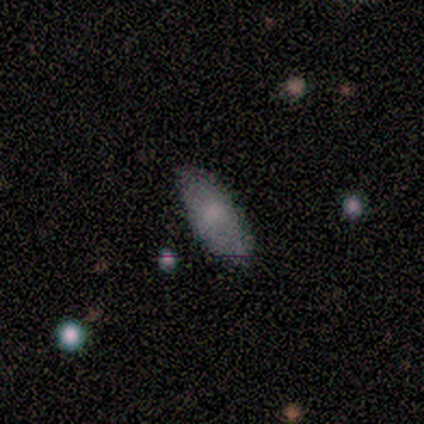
Smooth or featured?
  - smooth: 80% *
  - star or artifact: 20%
  - featured or disk: 0%
How rounded?
  - in between: 75% *
  - cigar-shaped: 25%
  - round: 0%
Merging?
  - none: 100% *
  - minor disturbance: 0%
  - major disturbance: 0%
  - merger: 0%